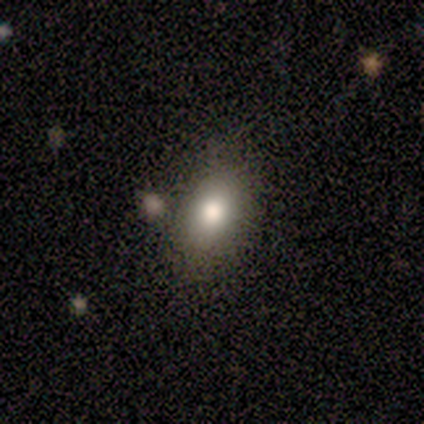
Volunteers were most divided on "how rounded": in between: 80%, round: 20%, cigar-shaped: 0%. More confident: smooth or featured — smooth (100%); merging — none (80%).